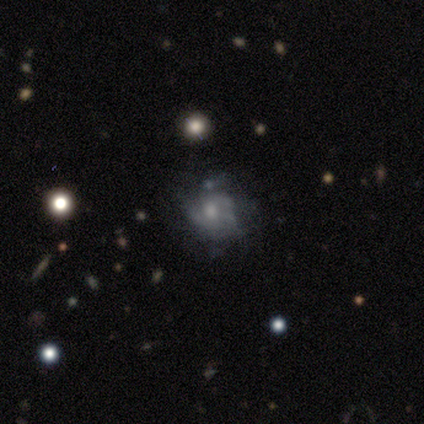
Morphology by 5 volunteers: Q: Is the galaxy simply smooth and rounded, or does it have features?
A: smooth — 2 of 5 (40%, tied with featured or disk).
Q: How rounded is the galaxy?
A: round — 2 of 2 (100%).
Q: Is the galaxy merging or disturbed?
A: none — 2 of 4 (50%, tied with minor disturbance).